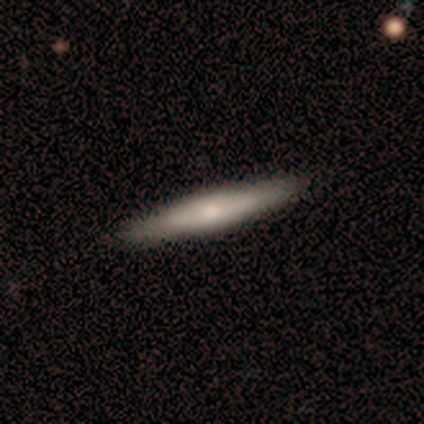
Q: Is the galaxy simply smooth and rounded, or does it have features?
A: featured or disk — 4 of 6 (67%).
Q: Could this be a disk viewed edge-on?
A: yes — 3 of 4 (75%).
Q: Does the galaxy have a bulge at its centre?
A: rounded — 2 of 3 (67%).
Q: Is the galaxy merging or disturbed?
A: none — 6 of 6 (100%).